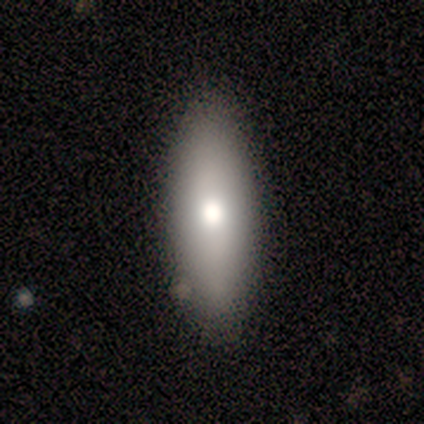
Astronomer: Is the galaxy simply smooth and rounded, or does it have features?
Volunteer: smooth — 83%.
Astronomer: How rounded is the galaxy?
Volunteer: in between — 80%.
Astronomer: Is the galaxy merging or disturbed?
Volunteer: none — 67%.